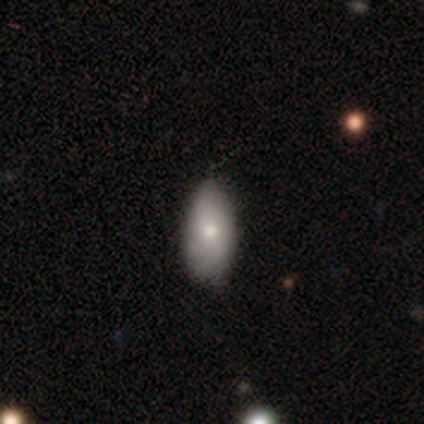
A smooth galaxy with no disk features (60%) that is in between round and cigar-shaped (100%). Merging: none (75%).